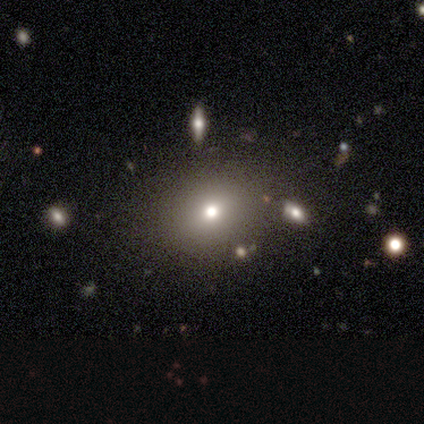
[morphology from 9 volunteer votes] A smooth galaxy with no disk features (78%) that is round (71%).

Vote fractions:
- Smooth or featured? smooth: 78% / star or artifact: 22% / featured or disk: 0%
- How rounded? round: 71% / in between: 29% / cigar-shaped: 0%
- Merging? none: 86% / minor disturbance: 14% / major disturbance: 0% / merger: 0%